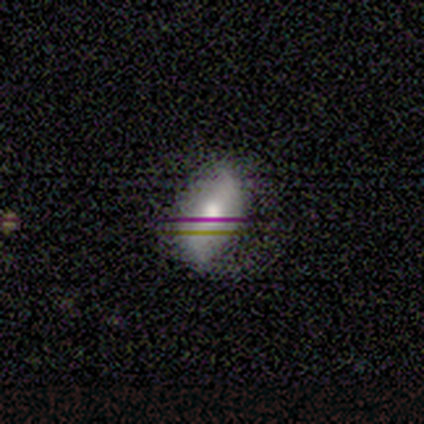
Smooth or featured? smooth (40%, tied with featured or disk)
How rounded? in between (100%)
Merging? none (100%)